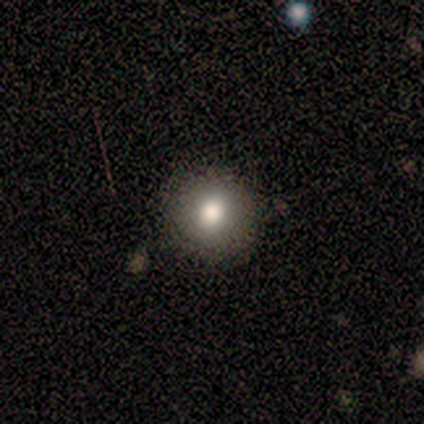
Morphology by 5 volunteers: smooth-or-featured: smooth: 60% | featured or disk: 40% | star or artifact: 0%
  how-rounded: round: 100% | in between: 0% | cigar-shaped: 0%
  merging: none: 100% | minor disturbance: 0% | major disturbance: 0% | merger: 0%